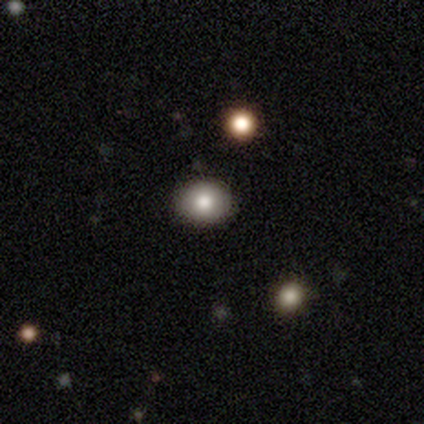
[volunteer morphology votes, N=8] Smooth or featured: smooth — 75% (star or artifact — 25%)
How rounded: round — 83% (in between — 17%)
Merging: none — 100%